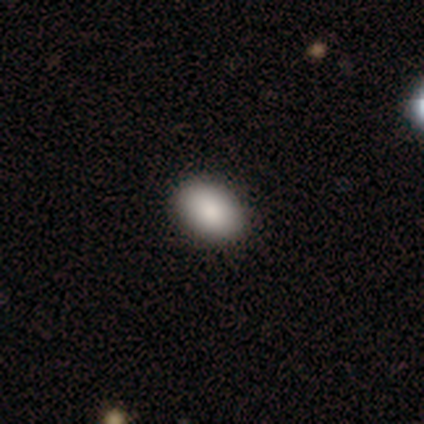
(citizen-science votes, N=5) Morphology: type=smooth (80%); roundness=in between (75%); merging=none (100%).